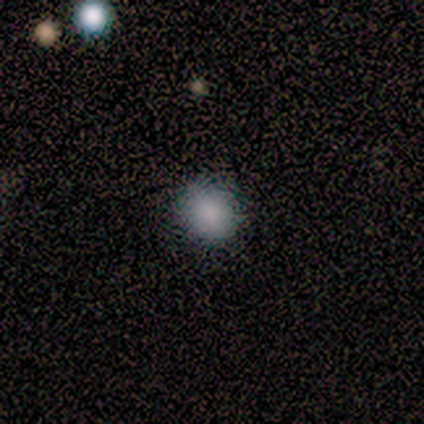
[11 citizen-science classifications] Q: Smooth or featured?
A: smooth (82%); runner-up: star or artifact (18%)
Q: How rounded?
A: round (78%); runner-up: in between (22%)
Q: Merging?
A: none (89%); runner-up: minor disturbance (11%)